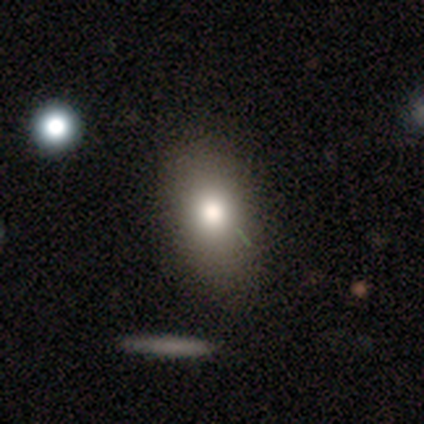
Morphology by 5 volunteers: Q: Smooth or featured?
A: featured or disk (80%); runner-up: smooth (20%)
Q: Edge-on disk?
A: no (100%)
Q: Bar?
A: no (100%)
Q: Spiral arms?
A: no (100%)
Q: Bulge size?
A: moderate (100%)
Q: Merging?
A: none (80%); runner-up: merger (20%)